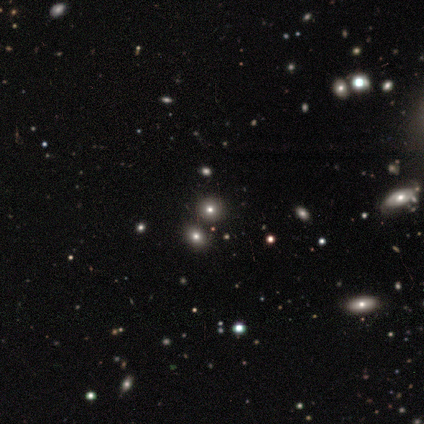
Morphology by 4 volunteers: Smooth or featured? 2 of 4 (50%, tied with star or artifact) said smooth. How rounded? 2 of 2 (100%) said round. Merging? 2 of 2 (100%) said none.